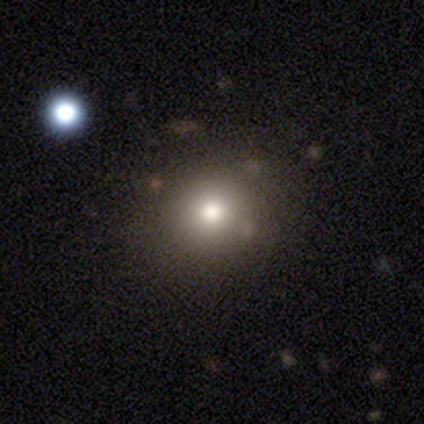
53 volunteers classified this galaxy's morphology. smooth 87%, featured or disk 8%, star or artifact 6%. Down the decision tree: how rounded — round (85%); merging — none (92%).